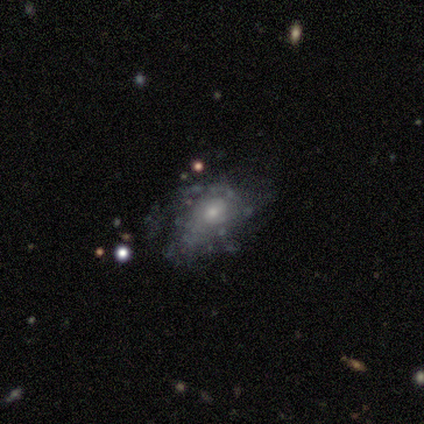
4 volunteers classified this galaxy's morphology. Smooth or featured: featured or disk — 75% (smooth — 25%)
Edge-on disk: no — 67% (yes — 33%)
Bar: no — 100%
Spiral arms: yes — 50% (tied with no — 50%)
Spiral winding: medium — 100%
Spiral arm count: can't tell — 100%
Bulge size: small — 100%
Merging: minor disturbance — 50% (none — 25%)